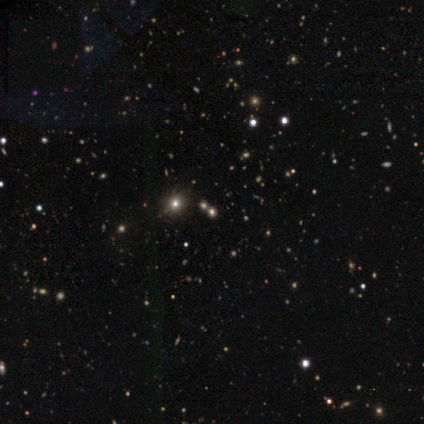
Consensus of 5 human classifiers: smooth_or_featured: smooth (p=0.60) [alt: star or artifact p=0.40]
how_rounded: round (p=1.00)
merging: none (p=1.00)